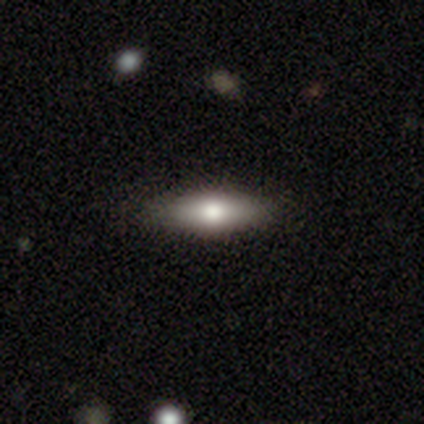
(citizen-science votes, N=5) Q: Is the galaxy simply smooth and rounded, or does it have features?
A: smooth — 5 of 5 (100%).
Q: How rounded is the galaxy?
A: in between — 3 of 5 (60%).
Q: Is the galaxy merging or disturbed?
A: none — 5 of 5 (100%).